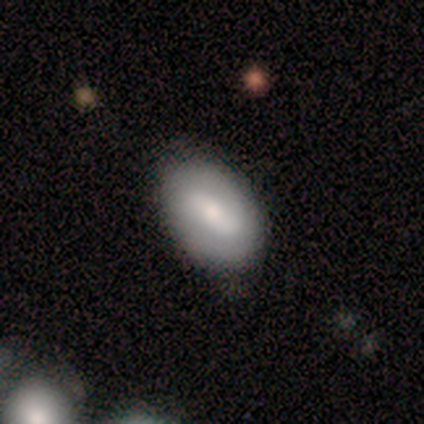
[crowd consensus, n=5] A smooth galaxy with no disk features (60%) that is in between round and cigar-shaped (100%).

Vote fractions:
- Smooth or featured? smooth: 60% / featured or disk: 40% / star or artifact: 0%
- How rounded? in between: 100% / round: 0% / cigar-shaped: 0%
- Merging? none: 80% / major disturbance: 20% / minor disturbance: 0% / merger: 0%